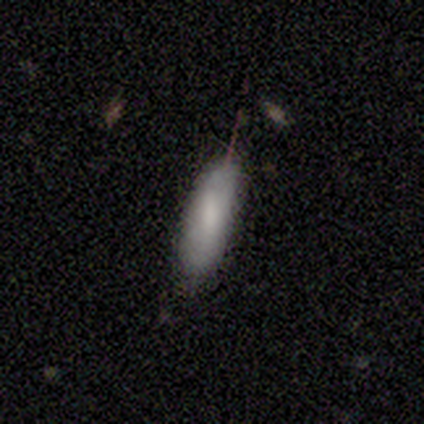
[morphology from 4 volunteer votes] Smooth or featured? smooth (100%)
How rounded? cigar-shaped (75%)
Merging? none (50%, tied with minor disturbance)